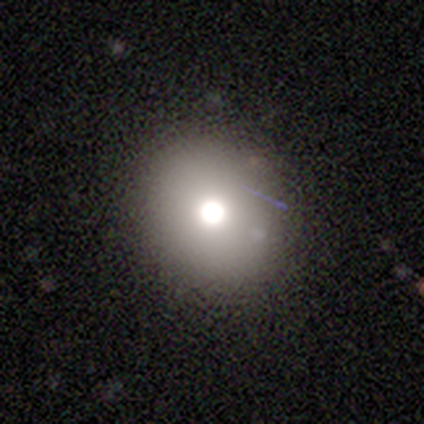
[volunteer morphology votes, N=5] type=smooth (80%); roundness=round (100%); merging=none (100%).